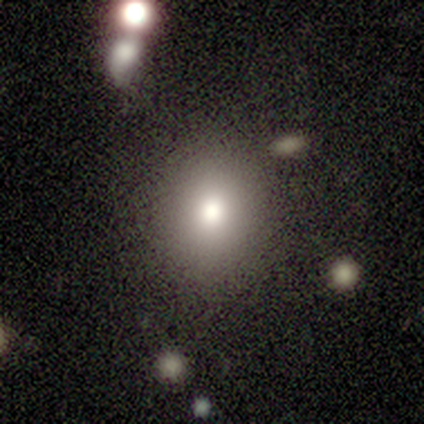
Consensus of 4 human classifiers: smooth 100%, featured or disk 0%, star or artifact 0%. Down the decision tree: how rounded — round (75%); merging — none (100%).